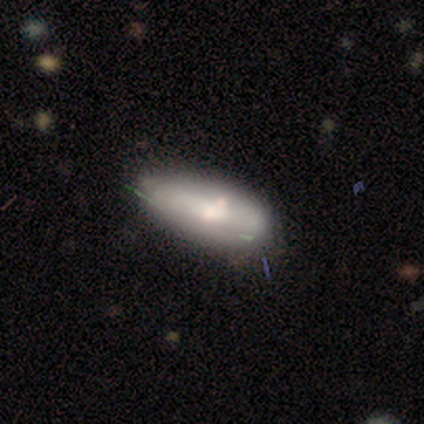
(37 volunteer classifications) This appears to be a smooth galaxy with no disk features (62%) that is in between round and cigar-shaped (83%). Merging: none (66%).